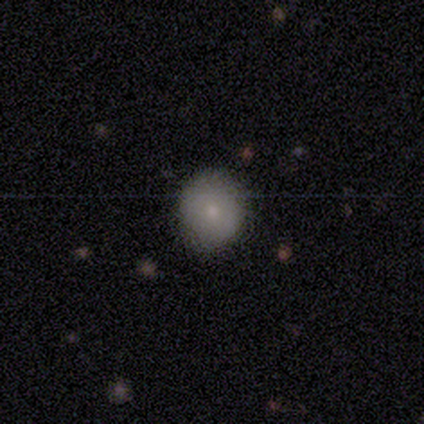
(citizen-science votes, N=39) smooth 79%, featured or disk 10%, star or artifact 10%. Down the decision tree: how rounded — round (87%); merging — none (80%).